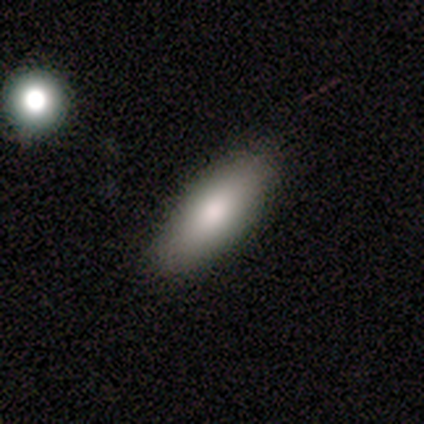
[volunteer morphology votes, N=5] Volunteers were most divided on "smooth or featured": smooth: 80%, featured or disk: 20%, star or artifact: 0%. More confident: how rounded — in between (100%); merging — none (80%).